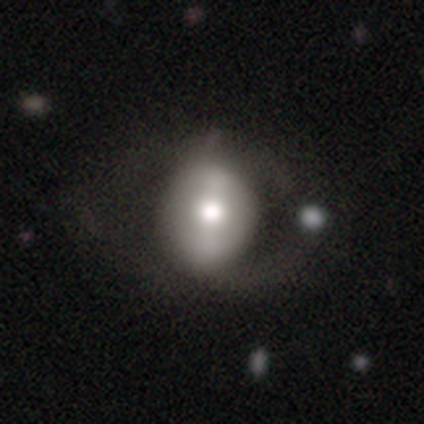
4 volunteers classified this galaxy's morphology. Smooth or featured? 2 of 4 (50%, tied with featured or disk) said smooth. How rounded? 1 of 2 (50%, tied with in between) said round. Merging? 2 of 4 (50%) said none.